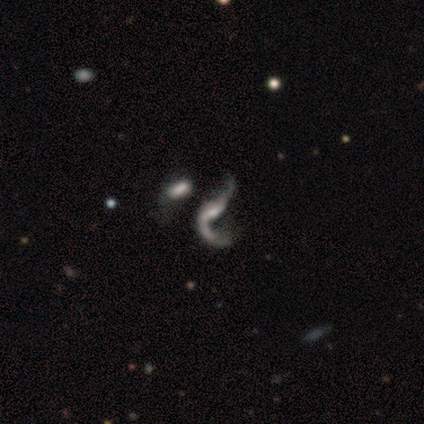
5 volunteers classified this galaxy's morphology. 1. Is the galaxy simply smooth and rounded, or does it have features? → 100% featured or disk, 0% smooth, 0% star or artifact.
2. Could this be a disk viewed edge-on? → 100% no, 0% yes.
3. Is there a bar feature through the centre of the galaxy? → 40% weak (tied), 40% no (tied), 20% strong.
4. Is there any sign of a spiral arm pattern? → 80% yes, 20% no.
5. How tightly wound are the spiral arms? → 100% loose, 0% tight, 0% medium.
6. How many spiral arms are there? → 50% 1 (tied), 50% 2 (tied), 0% 3, 0% 4, 0% more than 4, 0% can't tell.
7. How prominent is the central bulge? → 60% small, 20% dominant, 20% moderate, 0% large, 0% none.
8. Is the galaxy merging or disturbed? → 40% none, 20% minor disturbance, 20% major disturbance, 20% merger.